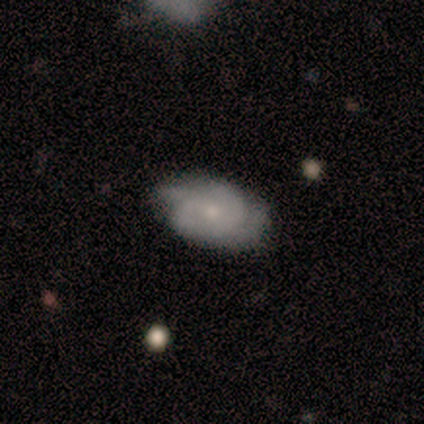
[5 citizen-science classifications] This appears to be a featured or disk galaxy (80%) with no bar (100%), 2 (50%) tight (50%, tied with medium) spiral arms (100%) and a small central bulge (75%). Merging: none (80%).